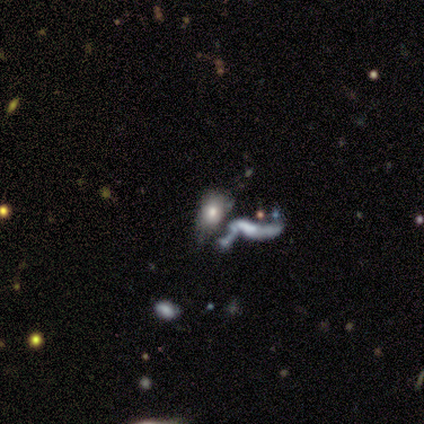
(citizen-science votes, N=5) A featured or disk galaxy (60%) with no bar (100%), no spiral arms (67%) and a small central bulge (100%).

Vote fractions:
- Smooth or featured? featured or disk: 60% / smooth: 20% / star or artifact: 20%
- Edge-on disk? no: 100% / yes: 0%
- Bar? no: 100% / strong: 0% / weak: 0%
- Spiral arms? no: 67% / yes: 33%
- Bulge size? small: 100% / dominant: 0% / large: 0% / moderate: 0% / none: 0%
- Merging? merger: 75% / major disturbance: 25% / none: 0% / minor disturbance: 0%